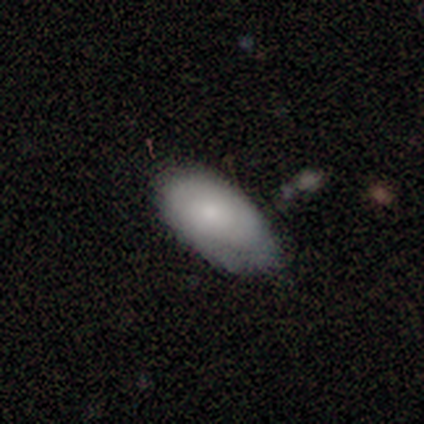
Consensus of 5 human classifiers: Smooth or featured: smooth — 80% (featured or disk — 20%)
How rounded: in between — 100%
Merging: none — 60% (minor disturbance — 20%)